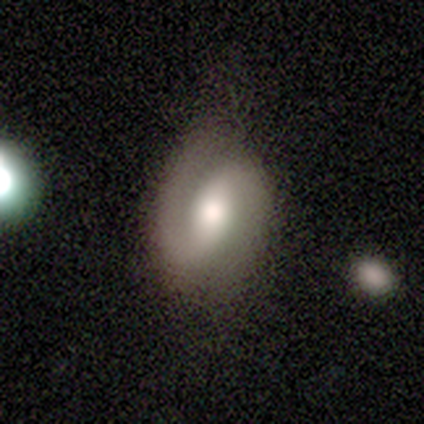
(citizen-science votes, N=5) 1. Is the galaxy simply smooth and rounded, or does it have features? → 60% featured or disk, 20% smooth, 20% star or artifact.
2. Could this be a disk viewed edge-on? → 100% no, 0% yes.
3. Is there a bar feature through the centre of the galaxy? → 100% weak, 0% strong, 0% no.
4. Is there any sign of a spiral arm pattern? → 100% yes, 0% no.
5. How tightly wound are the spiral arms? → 67% loose, 33% medium, 0% tight.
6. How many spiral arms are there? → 67% 2, 33% can't tell, 0% 1, 0% 3, 0% 4, 0% more than 4.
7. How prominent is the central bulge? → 67% moderate, 33% small, 0% dominant, 0% large, 0% none.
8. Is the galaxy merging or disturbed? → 75% none, 25% major disturbance, 0% minor disturbance, 0% merger.